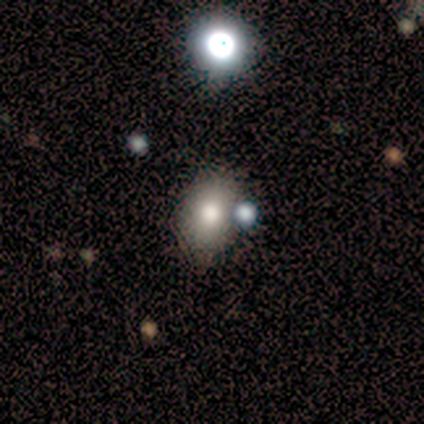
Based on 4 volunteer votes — Smooth or featured? smooth (75%)
How rounded? in between (100%)
Merging? none (67%)